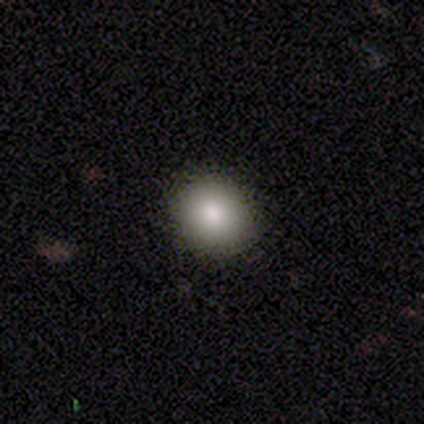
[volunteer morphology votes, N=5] smooth_or_featured: smooth (p=0.80) [alt: featured or disk p=0.20]
how_rounded: round (p=0.75) [alt: in between p=0.25]
merging: none (p=1.00)